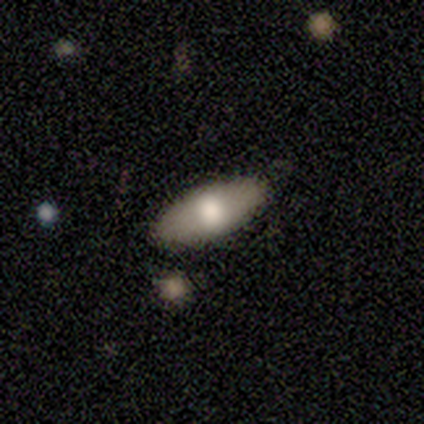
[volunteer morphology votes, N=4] This is likely a smooth galaxy (75%). How rounded: clearly in between (100%). Merging: clearly none (100%).